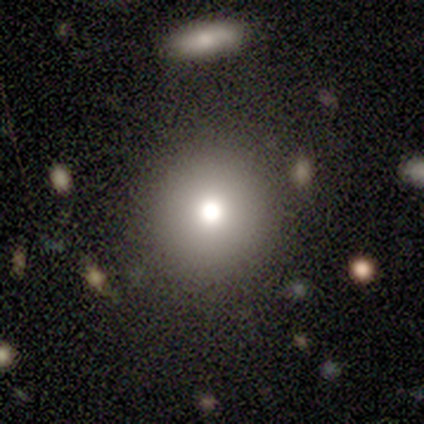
smooth_or_featured: smooth (p=0.80) [alt: star or artifact p=0.20]
how_rounded: round (p=1.00)
merging: none (p=1.00)